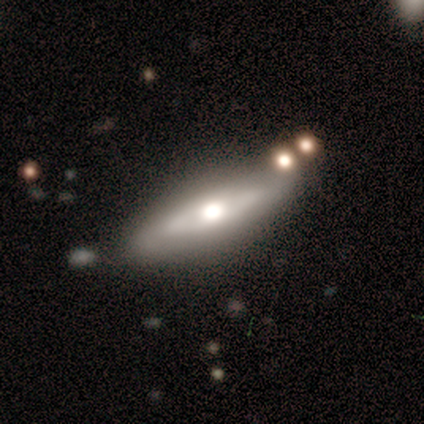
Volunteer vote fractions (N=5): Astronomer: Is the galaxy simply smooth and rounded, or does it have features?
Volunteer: featured or disk — 60%.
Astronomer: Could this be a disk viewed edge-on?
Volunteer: yes — 100%.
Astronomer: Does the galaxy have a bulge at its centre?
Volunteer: rounded — 100%.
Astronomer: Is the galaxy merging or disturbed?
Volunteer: none — 100%.